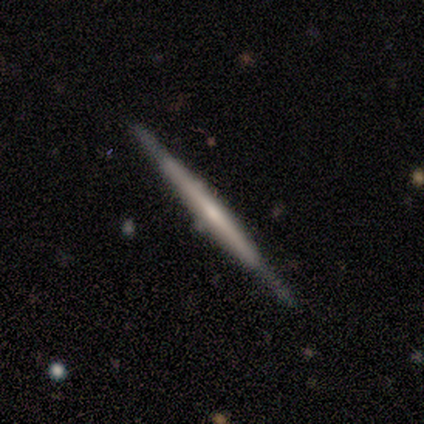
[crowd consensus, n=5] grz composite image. It shows a featured or disk galaxy (100%) viewed edge-on (100%) with no central bulge (80%). Merging: none (80%).